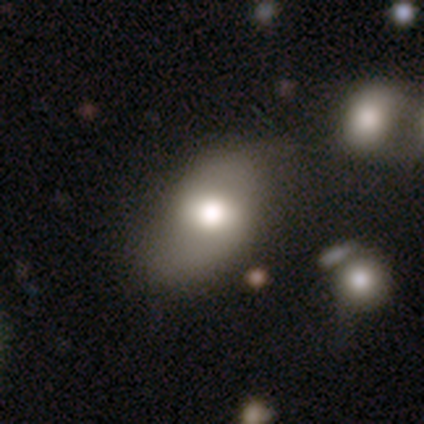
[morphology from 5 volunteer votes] This appears to be a smooth galaxy with no disk features (80%) that is in between round and cigar-shaped (100%). Merging: none (75%).